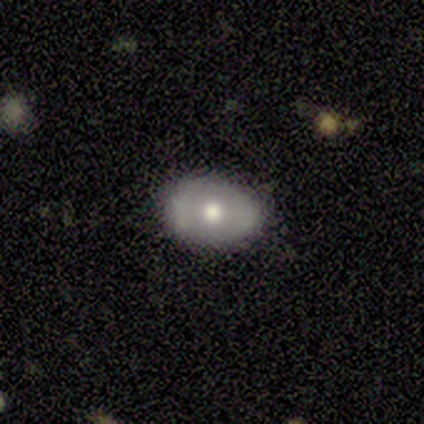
smooth 60%, featured or disk 40%, star or artifact 0%. Down the decision tree: how rounded — in between (67%); merging — none (100%).